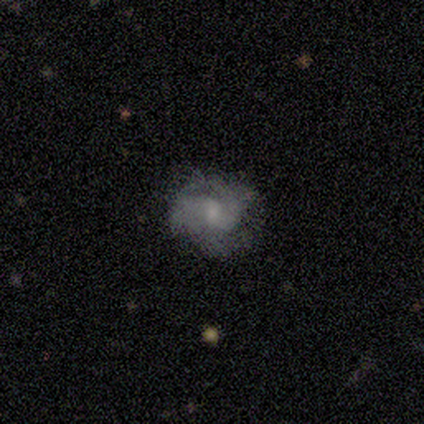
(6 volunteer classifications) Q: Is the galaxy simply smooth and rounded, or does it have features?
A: featured or disk — 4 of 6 (67%).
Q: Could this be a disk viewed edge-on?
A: no — 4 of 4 (100%).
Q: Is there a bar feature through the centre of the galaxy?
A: no — 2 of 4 (50%).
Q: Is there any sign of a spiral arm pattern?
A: yes — 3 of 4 (75%).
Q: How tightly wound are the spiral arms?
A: tight — 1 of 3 (33%, tied with medium and loose).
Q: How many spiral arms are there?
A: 2 — 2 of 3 (67%).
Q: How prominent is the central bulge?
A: moderate — 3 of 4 (75%).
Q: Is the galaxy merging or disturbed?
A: none — 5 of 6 (83%).